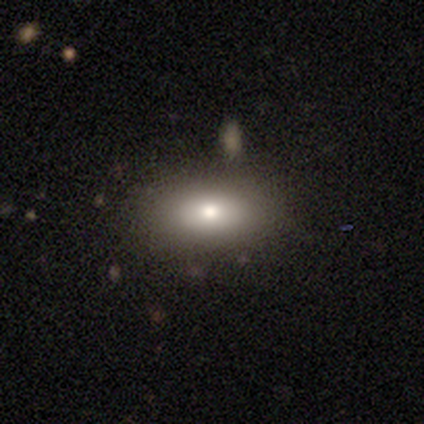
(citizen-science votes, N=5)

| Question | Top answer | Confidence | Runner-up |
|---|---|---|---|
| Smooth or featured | smooth | 80% | star or artifact (20%) |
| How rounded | in between | 75% | round (25%) |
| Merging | none | 100% | — |